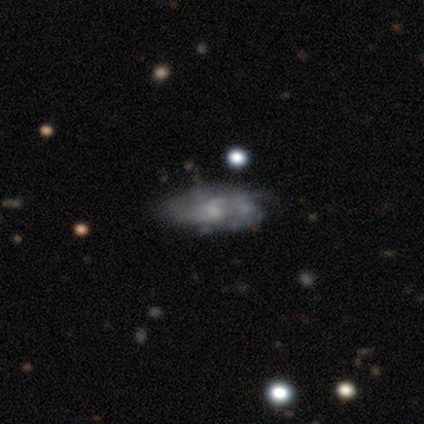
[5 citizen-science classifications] A featured or disk galaxy (100%) with no bar (60%), tight (75%) spiral arms (80%) and a small central bulge (60%). Merging: none (80%).